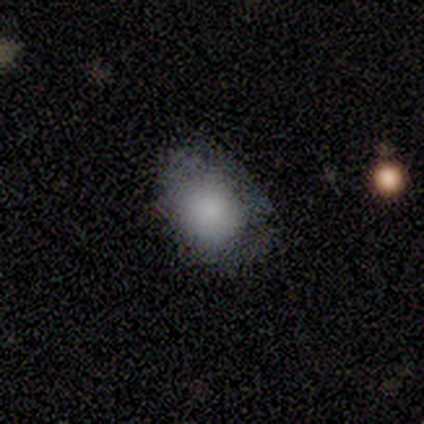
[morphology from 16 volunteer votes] Q: Smooth or featured?
A: smooth (100%)
Q: How rounded?
A: in between (75%); runner-up: round (25%)
Q: Merging?
A: none (50%); runner-up: minor disturbance (44%)